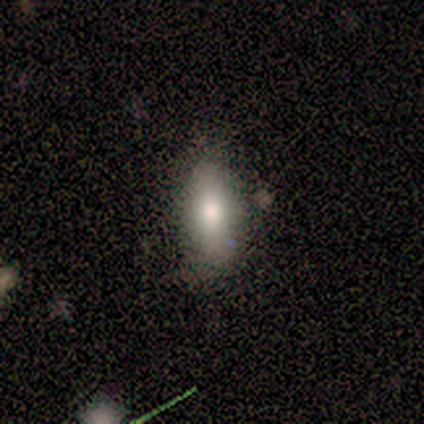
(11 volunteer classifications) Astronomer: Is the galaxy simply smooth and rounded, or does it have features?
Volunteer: smooth — 82%.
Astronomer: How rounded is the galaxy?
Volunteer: in between — 89%.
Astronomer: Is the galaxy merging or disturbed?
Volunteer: none — 82%.